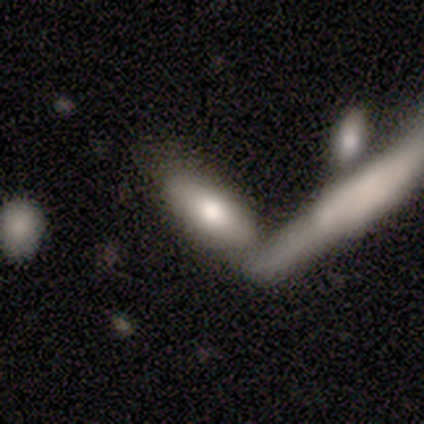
smooth 100%, featured or disk 0%, star or artifact 0%. Down the decision tree: how rounded — in between (75%); merging — none (50%).